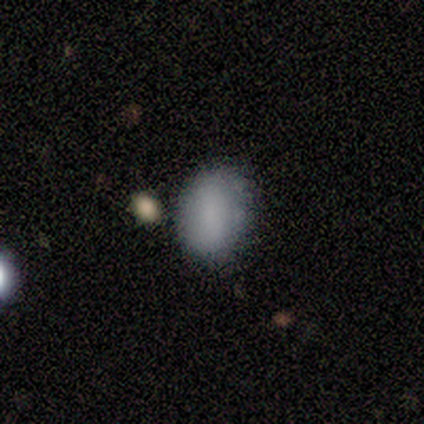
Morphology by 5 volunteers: smooth_or_featured: smooth (p=0.80) [alt: star or artifact p=0.20]
how_rounded: in between (p=0.75) [alt: round p=0.25]
merging: none (p=1.00)